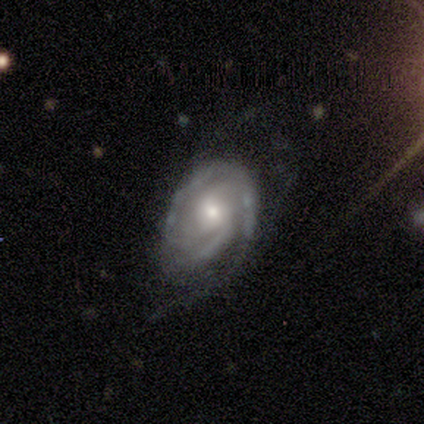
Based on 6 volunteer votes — A featured or disk galaxy (100%) with no bar (83%), 2 (33%, tied with 3) tight (50%, tied with medium) spiral arms (100%) and a small central bulge (67%). Merging: minor disturbance (83%).